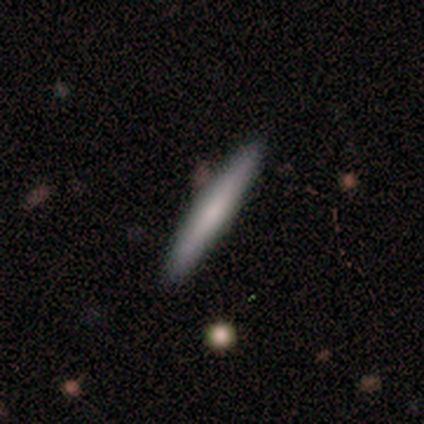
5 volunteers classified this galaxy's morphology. A smooth galaxy with no disk features (60%) that is cigar-shaped (100%). Merging: none (100%).